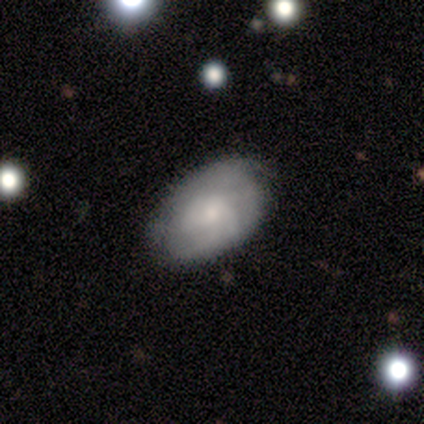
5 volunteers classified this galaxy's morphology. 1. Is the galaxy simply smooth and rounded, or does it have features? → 60% smooth, 40% featured or disk, 0% star or artifact.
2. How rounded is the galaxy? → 100% in between, 0% round, 0% cigar-shaped.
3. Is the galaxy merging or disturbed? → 100% none, 0% minor disturbance, 0% major disturbance, 0% merger.